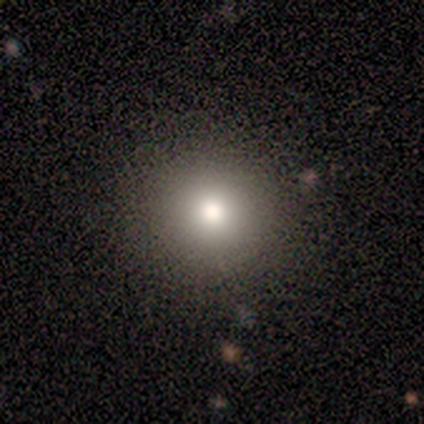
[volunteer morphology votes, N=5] Smooth or featured: smooth — 100%
How rounded: round — 80% (in between — 20%)
Merging: none — 100%